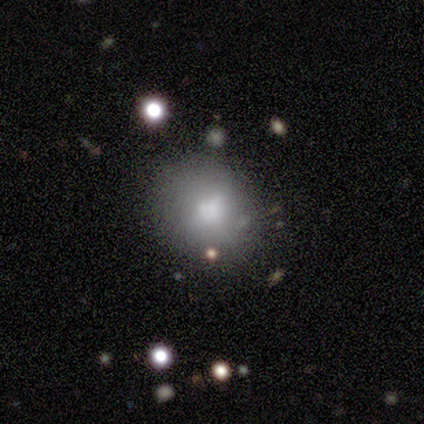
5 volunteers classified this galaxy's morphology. Overall: smooth (80%). How rounded: round (50%, tied with in between). Merging: none (60%; minor disturbance 40%).